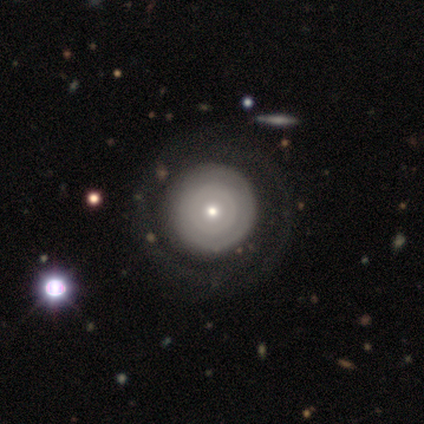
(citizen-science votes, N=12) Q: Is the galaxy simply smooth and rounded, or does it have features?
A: smooth — 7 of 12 (58%).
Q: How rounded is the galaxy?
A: round — 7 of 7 (100%).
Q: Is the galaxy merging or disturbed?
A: none — 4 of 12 (33%).